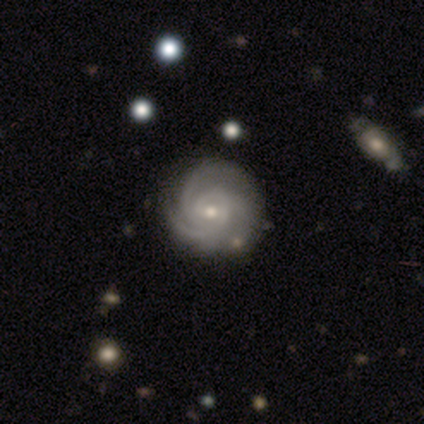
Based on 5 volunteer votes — Q: Smooth or featured?
A: featured or disk (100%)
Q: Edge-on disk?
A: no (100%)
Q: Bar?
A: no (60%); runner-up: weak (40%)
Q: Spiral arms?
A: yes (80%); runner-up: no (20%)
Q: Spiral winding?
A: tight (50%); tied with: medium (50%)
Q: Spiral arm count?
A: 3 (75%); runner-up: 2 (25%)
Q: Bulge size?
A: small (60%); runner-up: moderate (20%)
Q: Merging?
A: none (80%); runner-up: major disturbance (20%)